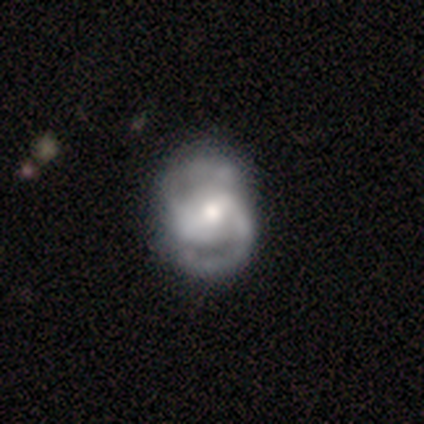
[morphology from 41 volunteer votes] Smooth or featured? featured or disk (90%)
Edge-on disk? no (97%)
Bar? weak (47%)
Spiral arms? yes (89%)
Spiral winding? medium (69%)
Spiral arm count? 2 (94%)
Bulge size? moderate (58%)
Merging? none (59%)